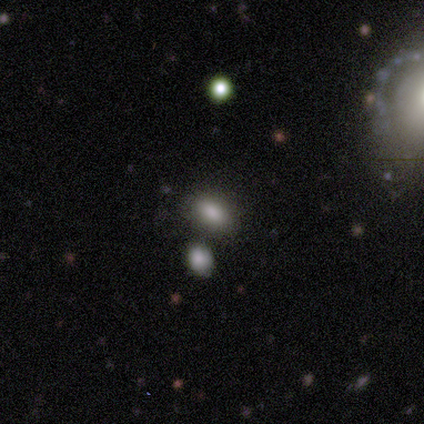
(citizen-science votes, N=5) Smooth or featured?
  - smooth: 100% *
  - featured or disk: 0%
  - star or artifact: 0%
How rounded?
  - in between: 80% *
  - round: 20%
  - cigar-shaped: 0%
Merging?
  - none: 60% *
  - merger: 40%
  - minor disturbance: 0%
  - major disturbance: 0%